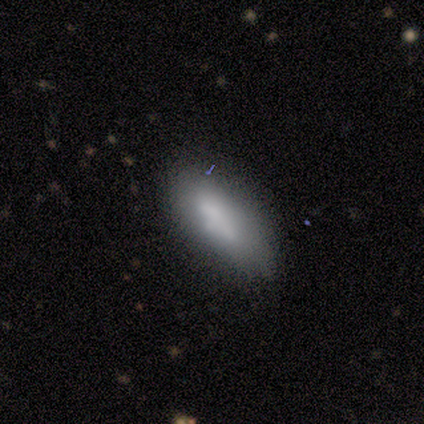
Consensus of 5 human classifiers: This is clearly a smooth galaxy (80%). How rounded: likely in between (75%). Merging: clearly minor disturbance (100%).